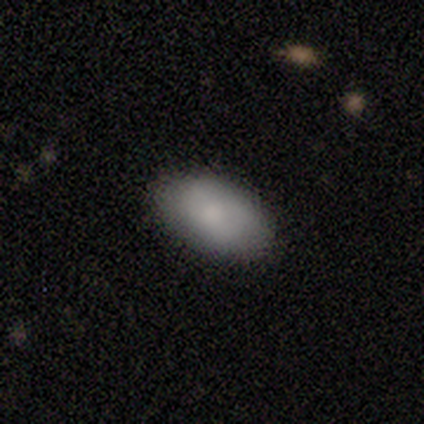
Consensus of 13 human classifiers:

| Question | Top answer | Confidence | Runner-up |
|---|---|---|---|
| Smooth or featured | smooth | 85% | featured or disk (8%) |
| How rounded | in between | 100% | — |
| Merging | none | 92% | minor disturbance (8%) |